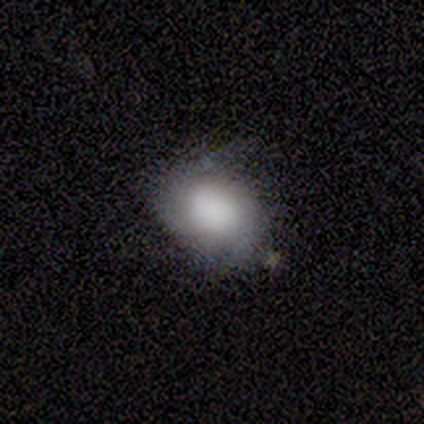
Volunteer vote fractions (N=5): Morphology: type=featured or disk (60%); edge-on=no (100%); bar=no (100%); spiral arms=yes (67%); winding=tight (50%, tied with loose); arm count=2 (100%); bulge=dominant (67%); merging=minor disturbance (60%).